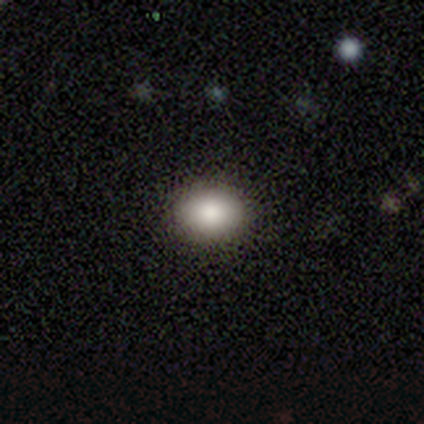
Volunteers were most divided on "smooth or featured": smooth: 60%, featured or disk: 40%, star or artifact: 0%. More confident: how rounded — in between (100%); merging — none (80%).